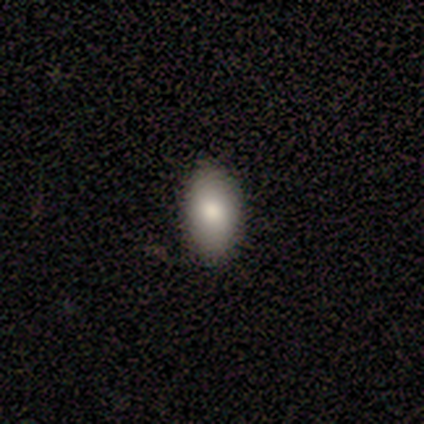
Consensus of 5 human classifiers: A smooth galaxy with no disk features (100%) that is in between round and cigar-shaped (80%).

Vote fractions:
- Smooth or featured? smooth: 100% / featured or disk: 0% / star or artifact: 0%
- How rounded? in between: 80% / round: 20% / cigar-shaped: 0%
- Merging? none: 80% / minor disturbance: 20% / major disturbance: 0% / merger: 0%